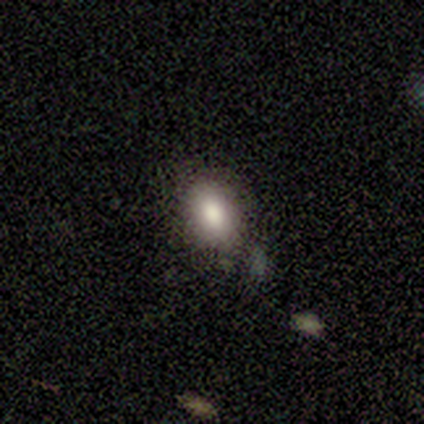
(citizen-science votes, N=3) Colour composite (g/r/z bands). It shows a smooth galaxy with no disk features (100%) that is in between round and cigar-shaped (100%). Merging: none (100%).